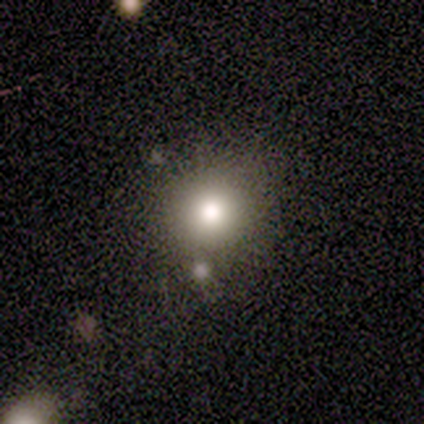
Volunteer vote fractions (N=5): Overall: smooth (80%). How rounded: round (100%). Merging: none (100%).